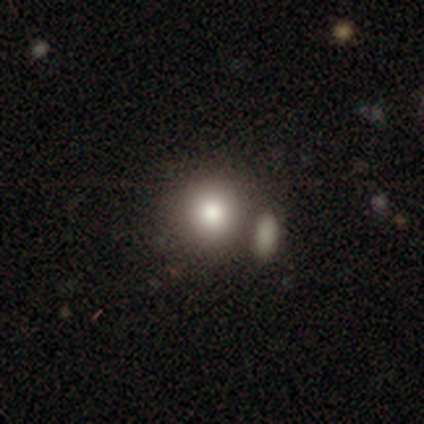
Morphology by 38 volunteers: Q: Smooth or featured?
A: smooth (82%); runner-up: star or artifact (11%)
Q: How rounded?
A: round (97%); runner-up: in between (3%)
Q: Merging?
A: none (47%); runner-up: merger (35%)